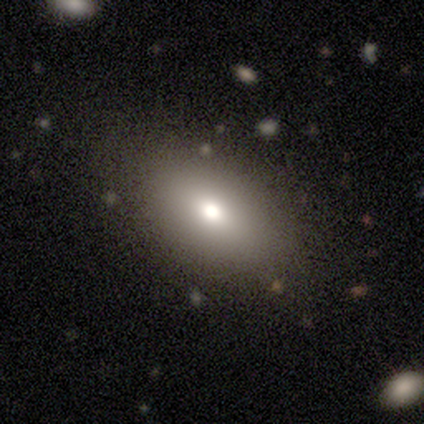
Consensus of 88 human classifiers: Q: Smooth or featured?
A: smooth (68%); runner-up: star or artifact (18%)
Q: How rounded?
A: in between (87%); runner-up: round (12%)
Q: Merging?
A: none (78%); runner-up: minor disturbance (15%)